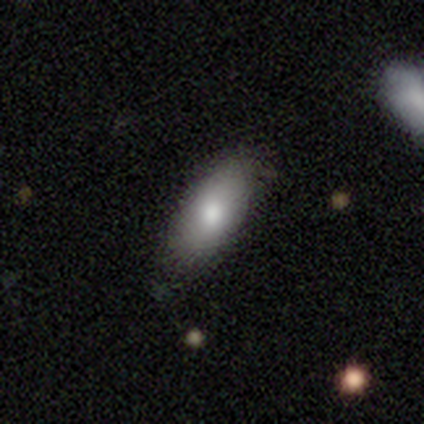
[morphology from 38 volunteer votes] This is likely a smooth galaxy (76%). How rounded: clearly in between (90%). Merging: likely none (73%).